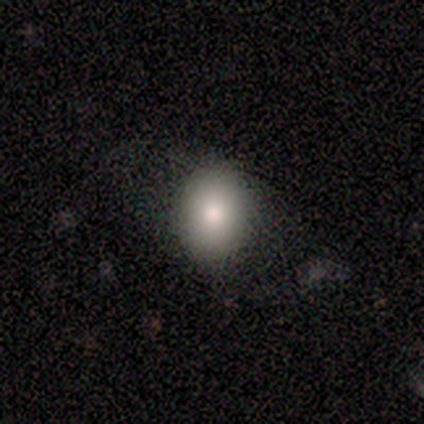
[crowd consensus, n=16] This is clearly a smooth galaxy (94%). How rounded: likely in between (67%). Merging: clearly none (80%).